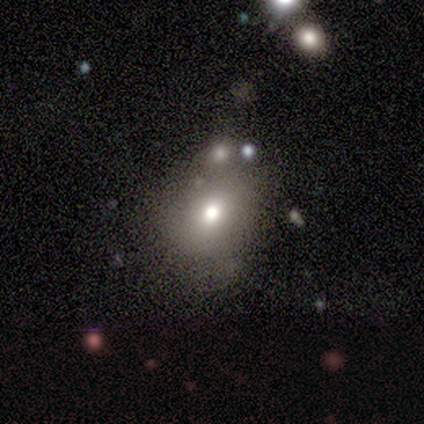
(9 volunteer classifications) Overall: smooth (56%; featured or disk 22%). How rounded: in between (80%). Merging: minor disturbance (43%, tied with merger).